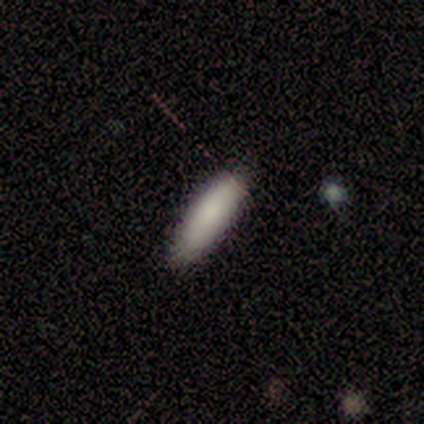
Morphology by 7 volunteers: A smooth galaxy with no disk features (100%) that is cigar-shaped (57%).

Vote fractions:
- Smooth or featured? smooth: 100% / featured or disk: 0% / star or artifact: 0%
- How rounded? cigar-shaped: 57% / in between: 43% / round: 0%
- Merging? none: 100% / minor disturbance: 0% / major disturbance: 0% / merger: 0%